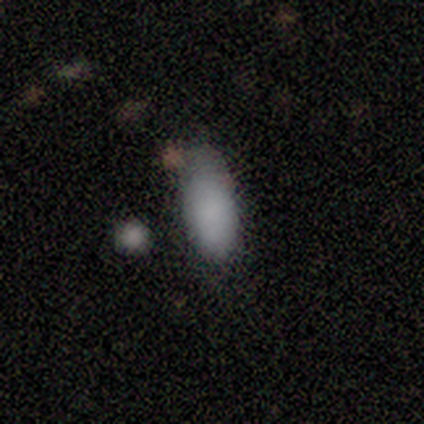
Smooth or featured? 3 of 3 (100%) said smooth. How rounded? 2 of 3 (67%) said in between. Merging? 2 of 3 (67%) said none.